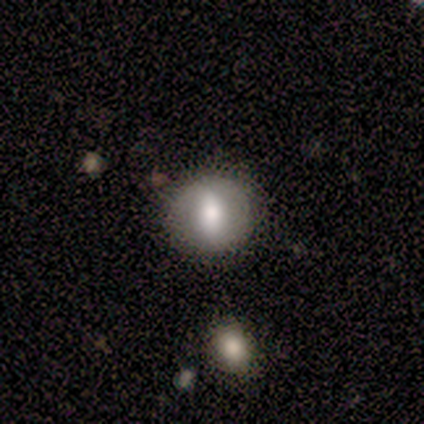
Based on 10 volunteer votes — Q: Smooth or featured?
A: featured or disk (60%); runner-up: smooth (30%)
Q: Edge-on disk?
A: no (100%)
Q: Bar?
A: strong (50%); tied with: weak (50%)
Q: Spiral arms?
A: no (83%); runner-up: yes (17%)
Q: Bulge size?
A: moderate (50%); runner-up: large (33%)
Q: Merging?
A: none (67%); runner-up: minor disturbance (33%)